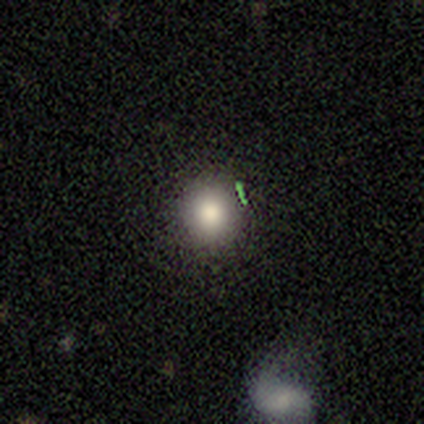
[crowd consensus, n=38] smooth-or-featured: smooth: 68% | star or artifact: 21% | featured or disk: 11%
  how-rounded: round: 88% | in between: 12% | cigar-shaped: 0%
  merging: none: 73% | minor disturbance: 27% | major disturbance: 0% | merger: 0%